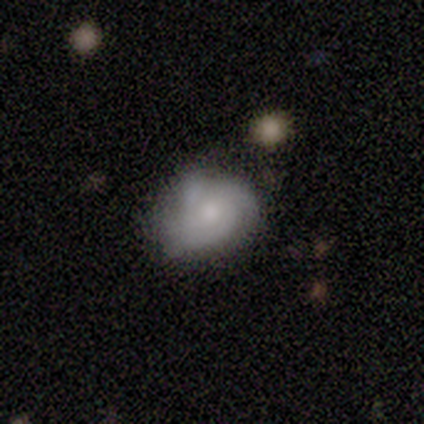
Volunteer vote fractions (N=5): This appears to be a featured or disk galaxy (80%) with no bar (100%), loose (50%) spiral arms (100%) and a moderate central bulge (50%, tied with small). Merging: minor disturbance (60%).